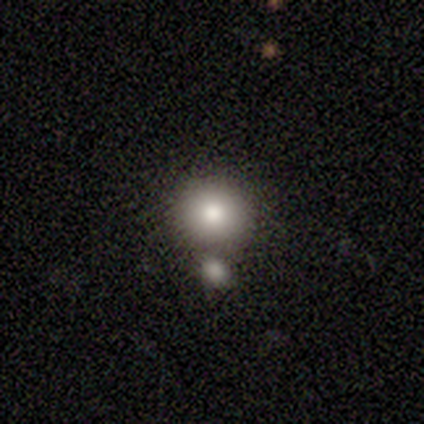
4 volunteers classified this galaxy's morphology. This appears to be a smooth galaxy with no disk features (50%) that is round (100%). Merging: merger (100%).